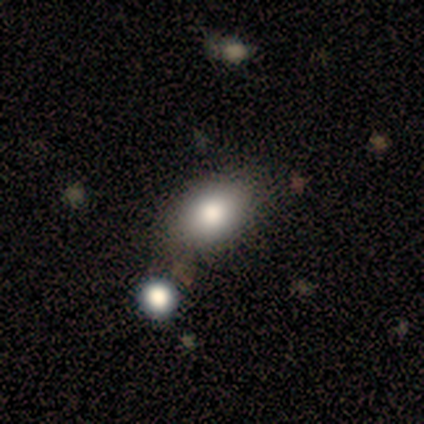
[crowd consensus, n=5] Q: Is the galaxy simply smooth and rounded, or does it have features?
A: smooth — 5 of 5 (100%).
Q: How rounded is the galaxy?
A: in between — 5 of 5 (100%).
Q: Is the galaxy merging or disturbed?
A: minor disturbance — 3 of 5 (60%).